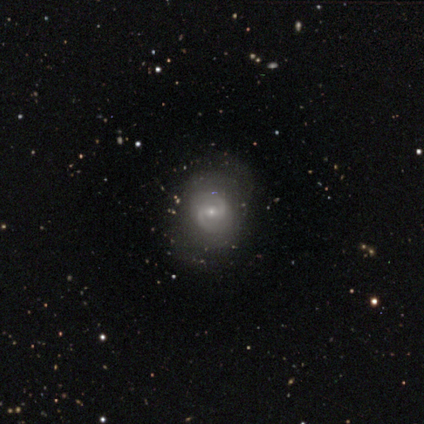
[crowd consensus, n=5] Smooth or featured?
  - featured or disk: 80% *
  - smooth: 20%
  - star or artifact: 0%
Edge-on disk?
  - no: 100% *
  - yes: 0%
Bar?
  - weak: 75% *
  - strong: 25%
  - no: 0%
Spiral arms?
  - yes: 100% *
  - no: 0%
Spiral winding?
  - medium: 50% *
  - tight: 25%
  - loose: 25%
Spiral arm count?
  - 2: 100% *
  - 1: 0%
  - 3: 0%
  - 4: 0%
  - more than 4: 0%
  - can't tell: 0%
Bulge size?
  - small: 100% *
  - dominant: 0%
  - large: 0%
  - moderate: 0%
  - none: 0%
Merging?
  - none: 80% *
  - minor disturbance: 20%
  - major disturbance: 0%
  - merger: 0%